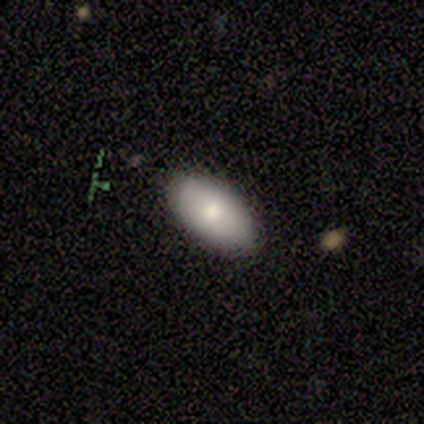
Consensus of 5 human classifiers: A smooth galaxy with no disk features (100%) that is in between round and cigar-shaped (100%).

Vote fractions:
- Smooth or featured? smooth: 100% / featured or disk: 0% / star or artifact: 0%
- How rounded? in between: 100% / round: 0% / cigar-shaped: 0%
- Merging? none: 80% / minor disturbance: 20% / major disturbance: 0% / merger: 0%